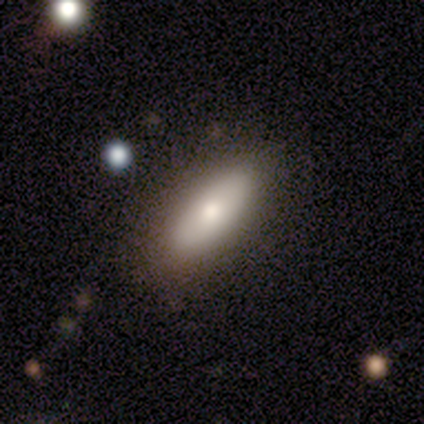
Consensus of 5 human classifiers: Q: Smooth or featured?
A: smooth (80%); runner-up: featured or disk (20%)
Q: How rounded?
A: in between (75%); runner-up: cigar-shaped (25%)
Q: Merging?
A: none (80%); runner-up: minor disturbance (20%)